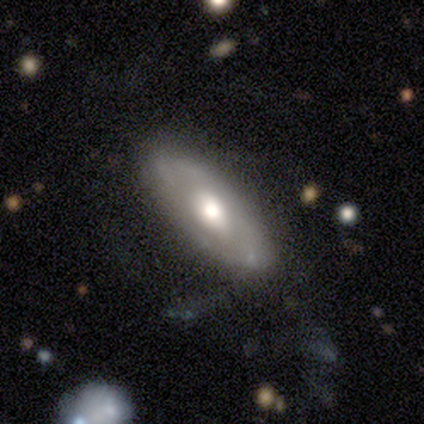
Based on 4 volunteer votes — Q: Smooth or featured?
A: featured or disk (75%); runner-up: smooth (25%)
Q: Edge-on disk?
A: no (100%)
Q: Bar?
A: weak (67%); runner-up: strong (33%)
Q: Spiral arms?
A: yes (67%); runner-up: no (33%)
Q: Spiral winding?
A: tight (50%); tied with: medium (50%)
Q: Spiral arm count?
A: can't tell (100%)
Q: Bulge size?
A: moderate (100%)
Q: Merging?
A: none (50%); runner-up: minor disturbance (25%)